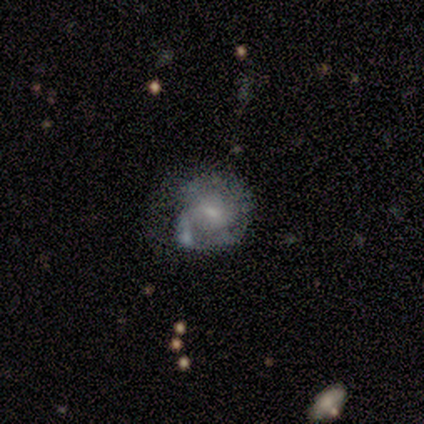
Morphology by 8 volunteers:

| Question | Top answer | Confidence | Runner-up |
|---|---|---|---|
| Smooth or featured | featured or disk | 88% | smooth (12%) |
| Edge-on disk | no | 100% | — |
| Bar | weak | 57% | no (43%) |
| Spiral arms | yes | 57% | no (43%) |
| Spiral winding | tight | 50% | tied: medium (50%) |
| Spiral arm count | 3 | 50% | 1 (25%) |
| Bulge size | small | 71% | moderate (29%) |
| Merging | minor disturbance | 50% | major disturbance (25%) |